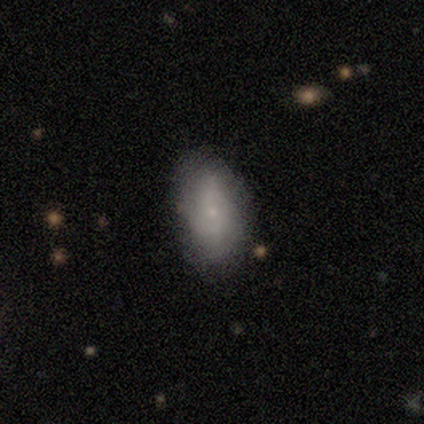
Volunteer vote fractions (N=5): A smooth galaxy with no disk features (80%) that is in between round and cigar-shaped (100%).

Vote fractions:
- Smooth or featured? smooth: 80% / featured or disk: 20% / star or artifact: 0%
- How rounded? in between: 100% / round: 0% / cigar-shaped: 0%
- Merging? none: 60% / minor disturbance: 40% / major disturbance: 0% / merger: 0%